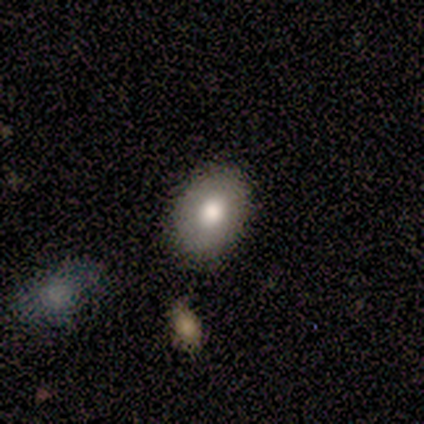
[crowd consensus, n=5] smooth 60%, featured or disk 40%, star or artifact 0%. Down the decision tree: how rounded — in between (67%); merging — none (100%).